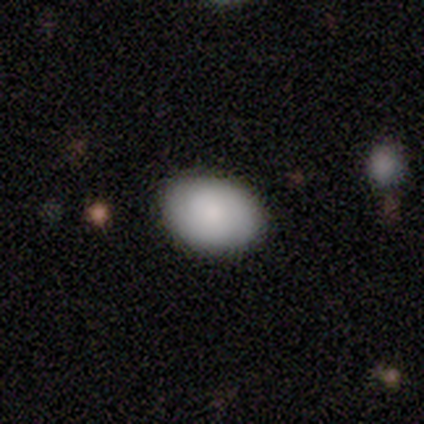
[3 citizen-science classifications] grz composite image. It shows a star or artifact, not a galaxy (67%).